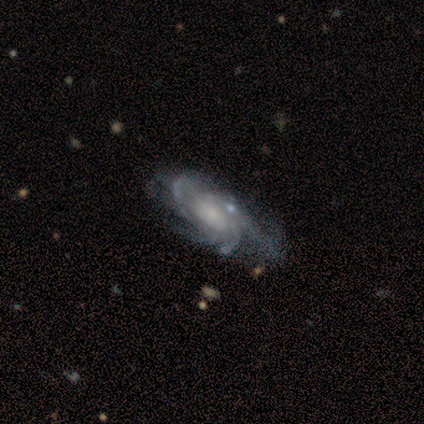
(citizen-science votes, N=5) A featured or disk galaxy (100%) with a weak bar (60%), 3 (40%) tight (60%) spiral arms (100%) and a small central bulge (60%). Merging: none (40%, tied with major disturbance).